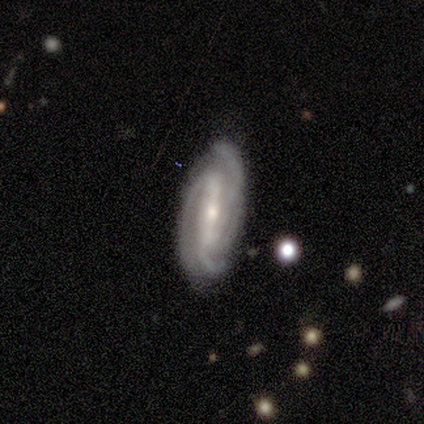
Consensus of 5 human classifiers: This is clearly a featured or disk galaxy (100%). It is clearly not viewed edge-on (100%). Bar: clearly strong (100%). Spiral arm pattern: clearly yes (100%). Spiral arm count: clearly 3 (80%). Spiral winding: likely tight (60%). Central bulge: clearly small (100%). Merging: likely none (60%).